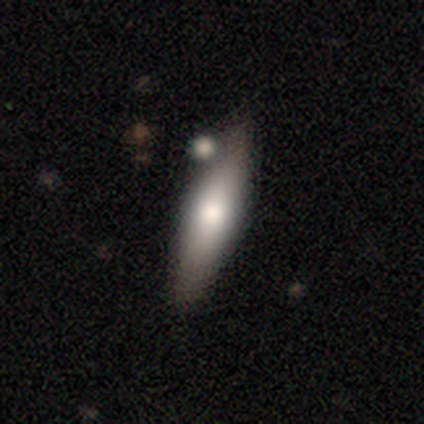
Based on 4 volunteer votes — Smooth or featured?
  - smooth: 75% *
  - featured or disk: 25%
  - star or artifact: 0%
How rounded?
  - cigar-shaped: 100% *
  - round: 0%
  - in between: 0%
Merging?
  - none: 50% *
  - minor disturbance: 25%
  - merger: 25%
  - major disturbance: 0%